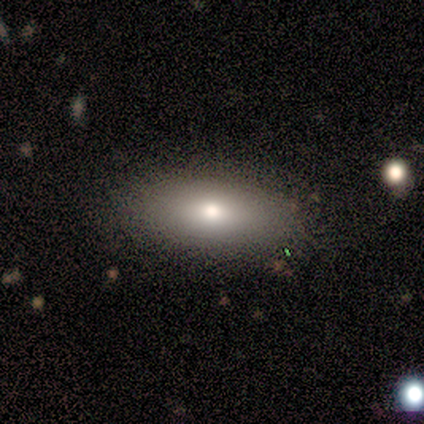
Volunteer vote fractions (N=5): Smooth or featured? smooth (80%)
How rounded? in between (100%)
Merging? none (100%)